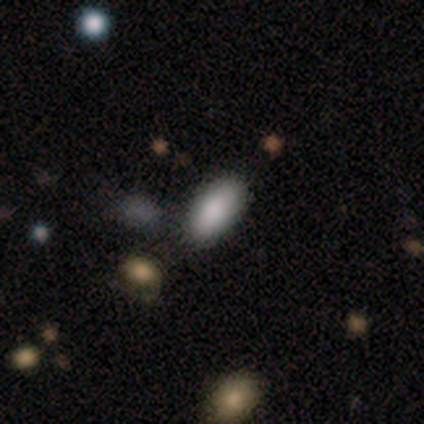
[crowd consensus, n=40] A smooth galaxy with no disk features (85%) that is in between round and cigar-shaped (88%). Merging: none (78%).